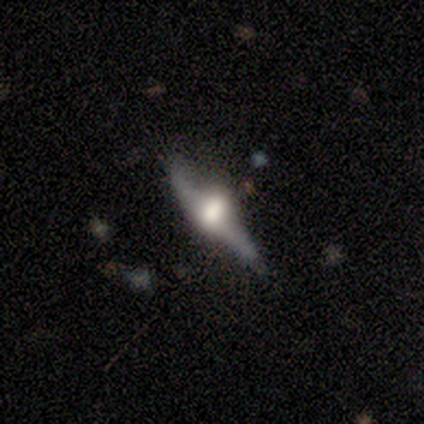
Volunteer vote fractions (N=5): Smooth or featured?
  - featured or disk: 80% *
  - smooth: 20%
  - star or artifact: 0%
Edge-on disk?
  - yes: 50% * (tied)
  - no: 50% * (tied)
Edge-on bulge?
  - rounded: 100% *
  - boxy: 0%
  - none: 0%
Merging?
  - none: 100% *
  - minor disturbance: 0%
  - major disturbance: 0%
  - merger: 0%